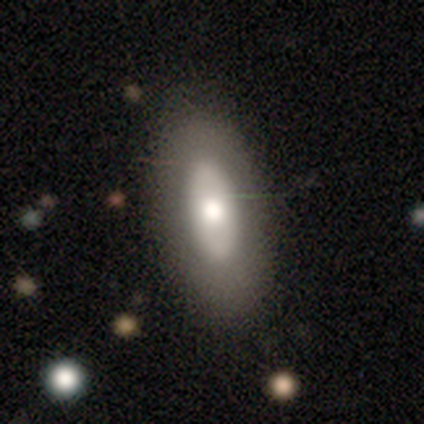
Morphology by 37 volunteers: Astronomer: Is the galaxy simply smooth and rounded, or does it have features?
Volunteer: smooth — 59%.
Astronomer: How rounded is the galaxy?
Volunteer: in between — 68%.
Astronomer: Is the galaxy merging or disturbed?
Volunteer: none — 79%.